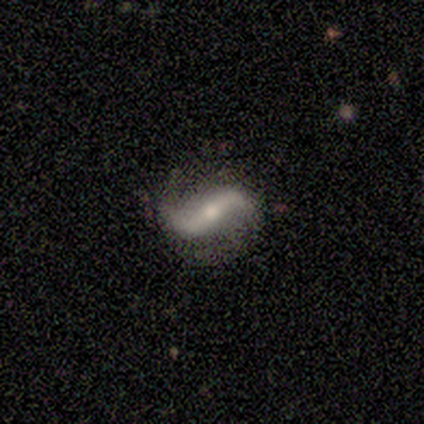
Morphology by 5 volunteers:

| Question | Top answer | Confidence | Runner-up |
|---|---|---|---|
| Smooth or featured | smooth | 60% | featured or disk (40%) |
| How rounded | round | 33% | tied: in between (33%), cigar-shaped (33%) |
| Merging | none | 60% | minor disturbance (20%) |